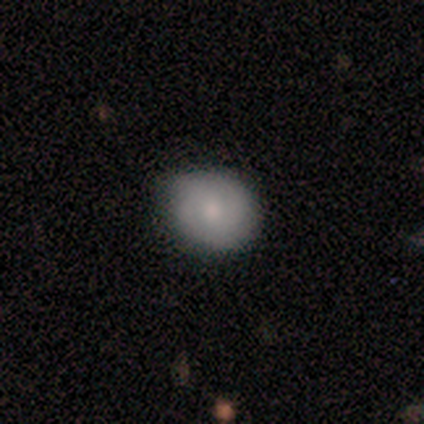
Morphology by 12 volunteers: A smooth galaxy with no disk features (58%) that is round (57%). Merging: none (73%).